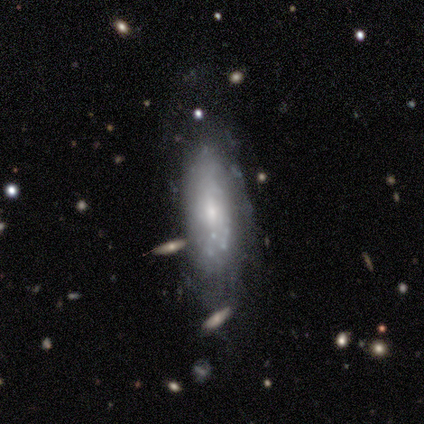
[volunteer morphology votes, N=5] A featured or disk galaxy (60%) with no bar (67%), 2 (50%, tied with can't tell) medium (100%) spiral arms (67%) and a moderate central bulge (67%).

Vote fractions:
- Smooth or featured? featured or disk: 60% / smooth: 40% / star or artifact: 0%
- Edge-on disk? no: 100% / yes: 0%
- Bar? no: 67% / weak: 33% / strong: 0%
- Spiral arms? yes: 67% / no: 33%
- Spiral winding? medium: 100% / tight: 0% / loose: 0%
- Spiral arm count? 2: 50% (tied) / can't tell: 50% (tied) / 1: 0% / 3: 0% / 4: 0% / more than 4: 0%
- Bulge size? moderate: 67% / small: 33% / dominant: 0% / large: 0% / none: 0%
- Merging? none: 80% / major disturbance: 20% / minor disturbance: 0% / merger: 0%